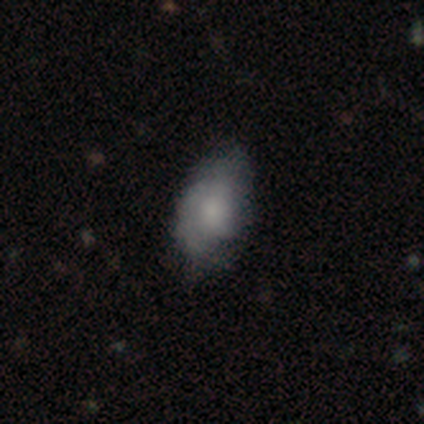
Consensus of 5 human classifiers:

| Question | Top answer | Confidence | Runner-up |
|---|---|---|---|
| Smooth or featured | smooth | 60% | featured or disk (40%) |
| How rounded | in between | 100% | — |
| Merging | minor disturbance | 60% | none (40%) |